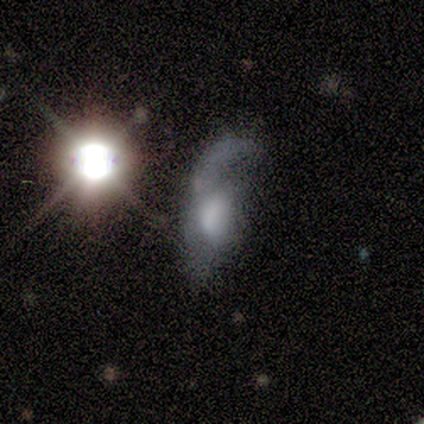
Q: Smooth or featured?
A: featured or disk (60%); runner-up: smooth (20%)
Q: Edge-on disk?
A: no (67%); runner-up: yes (33%)
Q: Bar?
A: weak (50%); tied with: no (50%)
Q: Spiral arms?
A: yes (50%); tied with: no (50%)
Q: Spiral winding?
A: loose (100%)
Q: Spiral arm count?
A: 2 (100%)
Q: Bulge size?
A: large (50%); tied with: none (50%)
Q: Merging?
A: major disturbance (50%); tied with: merger (50%)